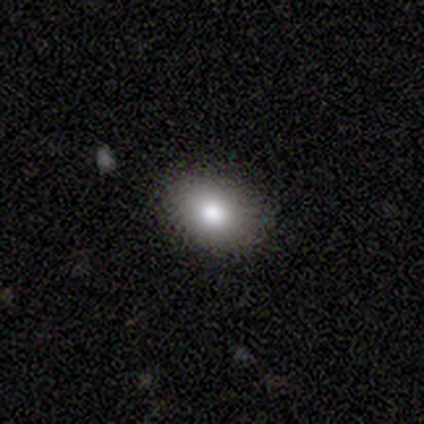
smooth_or_featured: smooth (p=1.00)
how_rounded: in between (p=1.00)
merging: none (p=0.75) [alt: minor disturbance p=0.25]